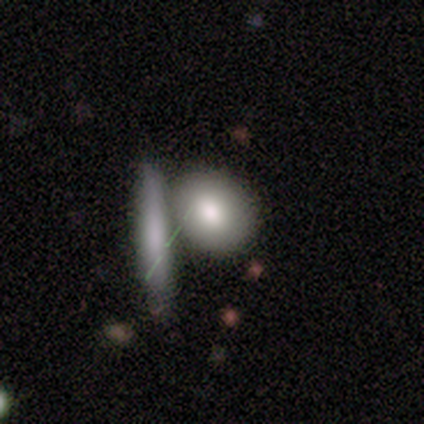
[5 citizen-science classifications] A featured or disk galaxy (60%) with no bar (100%), no spiral arms (100%) and a moderate central bulge (67%).

Vote fractions:
- Smooth or featured? featured or disk: 60% / smooth: 40% / star or artifact: 0%
- Edge-on disk? no: 100% / yes: 0%
- Bar? no: 100% / strong: 0% / weak: 0%
- Spiral arms? no: 100% / yes: 0%
- Bulge size? moderate: 67% / large: 33% / dominant: 0% / small: 0% / none: 0%
- Merging? none: 80% / major disturbance: 20% / minor disturbance: 0% / merger: 0%